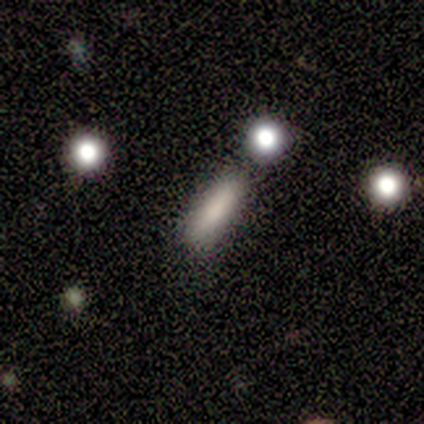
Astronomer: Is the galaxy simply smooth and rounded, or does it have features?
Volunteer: smooth — 84%.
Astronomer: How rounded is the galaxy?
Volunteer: cigar-shaped — 58% (runner-up: in between, 42%).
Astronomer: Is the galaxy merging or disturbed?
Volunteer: none — 70%.